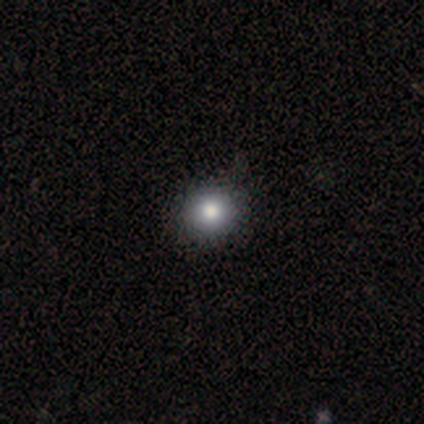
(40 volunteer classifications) Smooth or featured?
  - smooth: 88% *
  - star or artifact: 8%
  - featured or disk: 5%
How rounded?
  - round: 89% *
  - in between: 11%
  - cigar-shaped: 0%
Merging?
  - none: 59% *
  - minor disturbance: 3%
  - major disturbance: 3%
  - merger: 0%